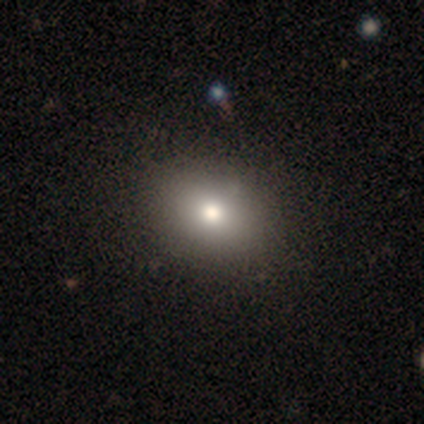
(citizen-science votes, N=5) Smooth or featured: smooth — 80% (star or artifact — 20%)
How rounded: round — 50% (tied with in between — 50%)
Merging: none — 100%